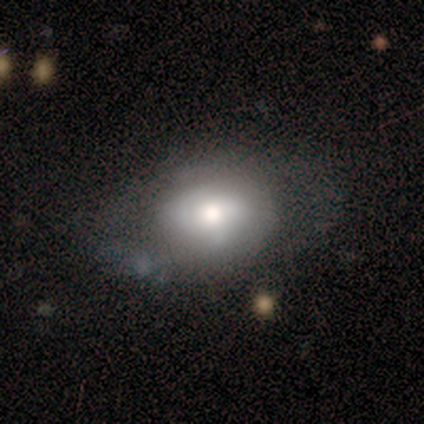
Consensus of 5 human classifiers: Smooth or featured: featured or disk — 80% (smooth — 20%)
Edge-on disk: no — 100%
Bar: no — 75% (weak — 25%)
Spiral arms: no — 75% (yes — 25%)
Bulge size: moderate — 75% (large — 25%)
Merging: minor disturbance — 60% (none — 40%)